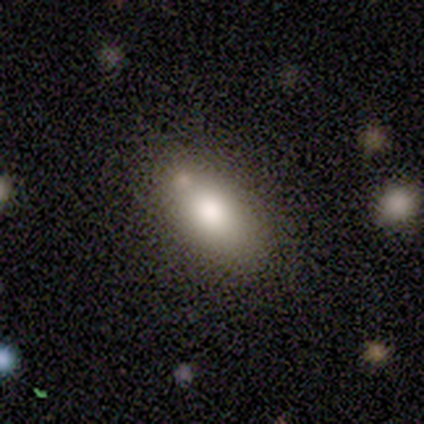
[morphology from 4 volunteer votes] A smooth galaxy with no disk features (100%) that is in between round and cigar-shaped (100%). Merging: none (50%, tied with minor disturbance).